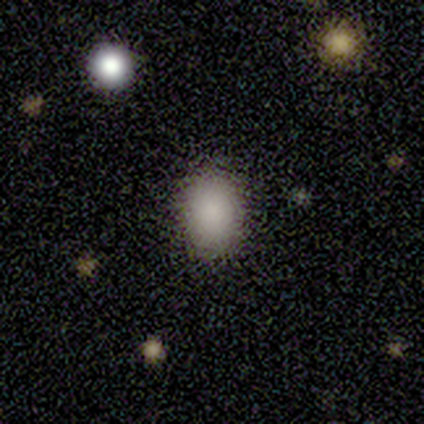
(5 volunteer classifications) Smooth or featured? 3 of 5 (60%) said smooth. How rounded? 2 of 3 (67%) said in between. Merging? 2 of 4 (50%, tied with minor disturbance) said none.